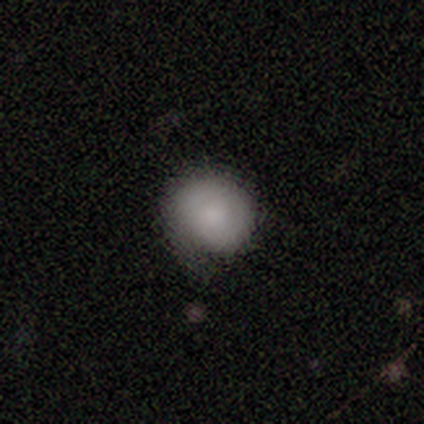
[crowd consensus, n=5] Smooth or featured?
  - smooth: 60% *
  - star or artifact: 40%
  - featured or disk: 0%
How rounded?
  - in between: 67% *
  - round: 33%
  - cigar-shaped: 0%
Merging?
  - none: 67% *
  - minor disturbance: 33%
  - major disturbance: 0%
  - merger: 0%